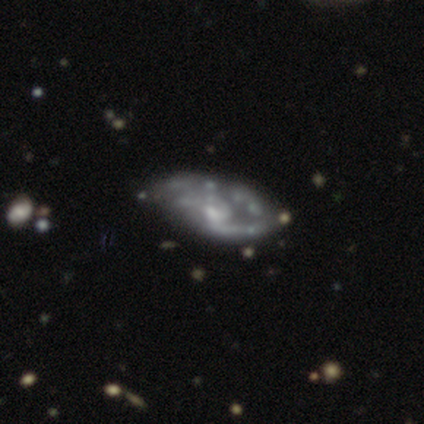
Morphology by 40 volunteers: Smooth or featured? 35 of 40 (88%) said featured or disk. Edge-on disk? 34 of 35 (97%) said no. Bar? 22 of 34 (65%) said no. Spiral arms? 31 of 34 (91%) said yes. Spiral winding? 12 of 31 (39%) said medium. Spiral arm count? 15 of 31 (48%) said 2. Bulge size? 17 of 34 (50%) said small. Merging? 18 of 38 (47%) said none.